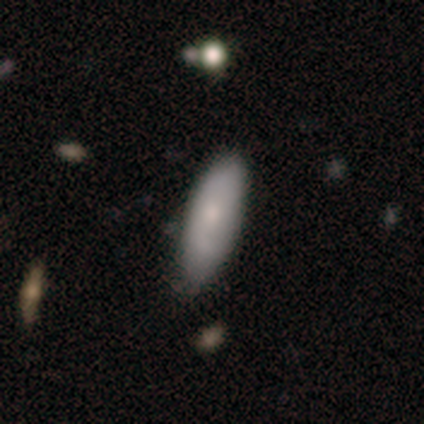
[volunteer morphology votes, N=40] A smooth galaxy with no disk features (65%) that is in between round and cigar-shaped (50%). Merging: none (48%).